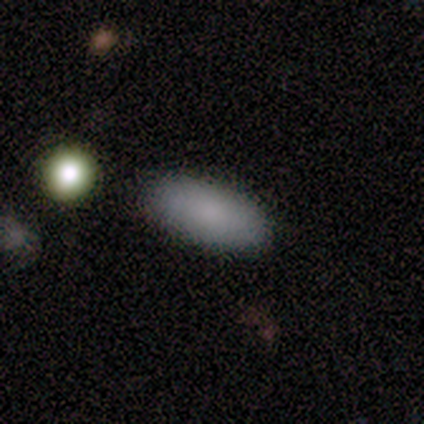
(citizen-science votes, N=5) Q: Smooth or featured?
A: smooth (100%)
Q: How rounded?
A: in between (100%)
Q: Merging?
A: none (100%)